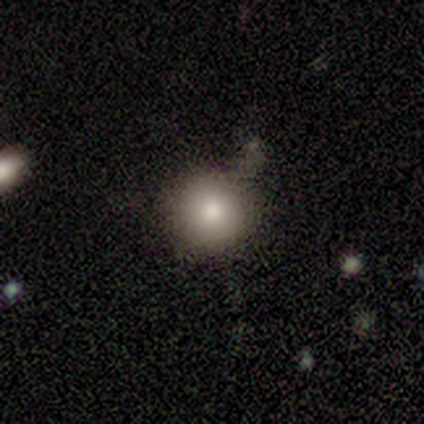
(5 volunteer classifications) Morphology: type=smooth (100%); roundness=round (100%); merging=none (80%).